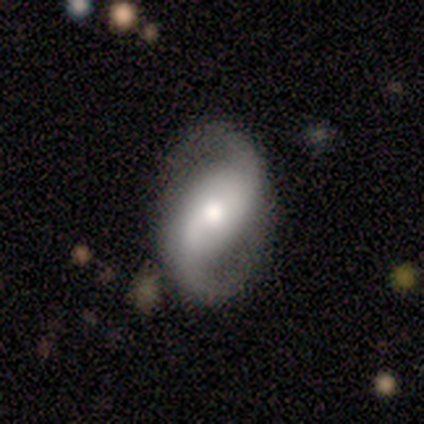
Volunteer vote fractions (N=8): Smooth or featured?
  - featured or disk: 100% *
  - smooth: 0%
  - star or artifact: 0%
Edge-on disk?
  - no: 100% *
  - yes: 0%
Bar?
  - weak: 50% *
  - strong: 25%
  - no: 25%
Spiral arms?
  - yes: 100% *
  - no: 0%
Spiral winding?
  - medium: 38% * (tied)
  - loose: 38% * (tied)
  - tight: 25%
Spiral arm count?
  - 2: 100% *
  - 1: 0%
  - 3: 0%
  - 4: 0%
  - more than 4: 0%
  - can't tell: 0%
Bulge size?
  - moderate: 50% *
  - small: 38%
  - large: 12%
  - dominant: 0%
  - none: 0%
Merging?
  - none: 75% *
  - minor disturbance: 25%
  - major disturbance: 0%
  - merger: 0%